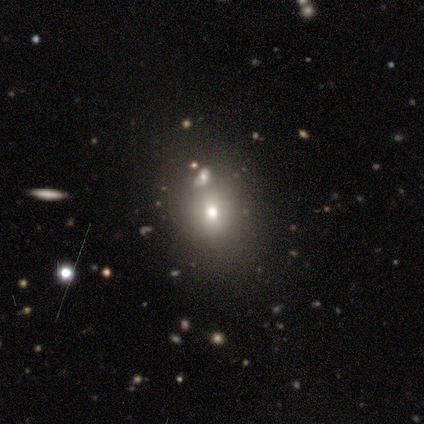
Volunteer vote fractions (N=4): Smooth or featured? star or artifact (50%)